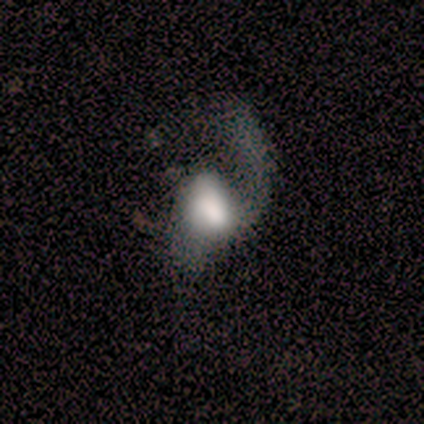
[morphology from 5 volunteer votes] A featured or disk galaxy (80%) with a weak bar (50%, tied with no), no spiral arms (75%) and a large central bulge (50%). Merging: major disturbance (80%).